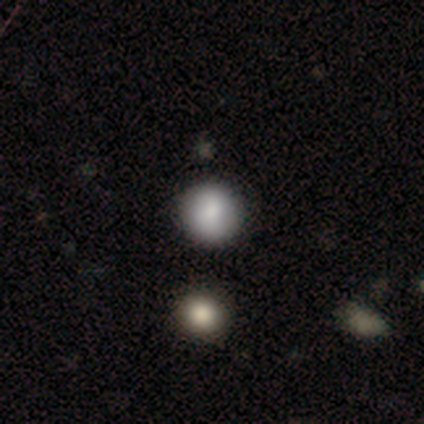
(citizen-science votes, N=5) Morphology: type=smooth (80%); roundness=round (100%); merging=none (75%).